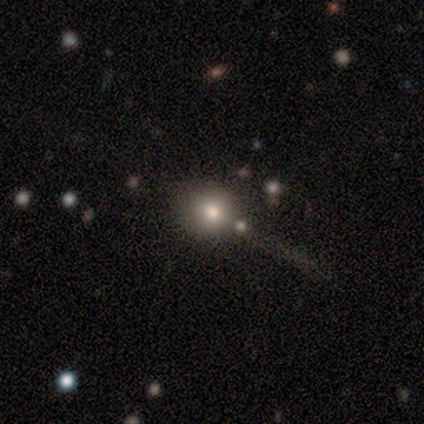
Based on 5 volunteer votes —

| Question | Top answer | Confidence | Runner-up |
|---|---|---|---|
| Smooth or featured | smooth | 80% | featured or disk (20%) |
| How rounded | round | 100% | — |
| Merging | none | 80% | minor disturbance (20%) |